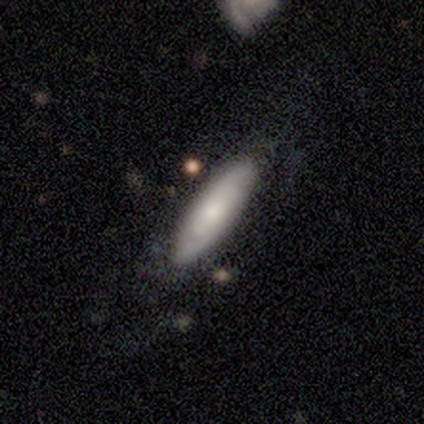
Volunteers were most divided on "smooth or featured": smooth: 55%, featured or disk: 45%, star or artifact: 0%. More confident: merging — none (80%); how rounded — cigar-shaped (59%).